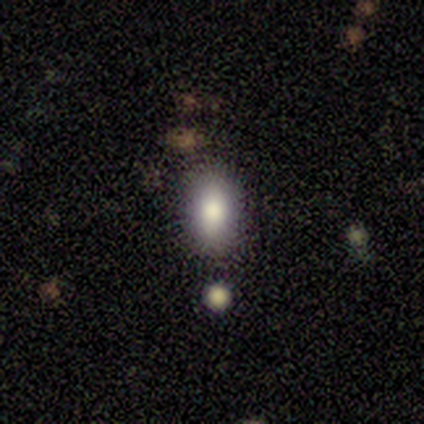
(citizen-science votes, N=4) Smooth or featured: smooth — 50% (tied with star or artifact — 50%)
How rounded: in between — 100%
Merging: none — 50% (tied with minor disturbance — 50%)